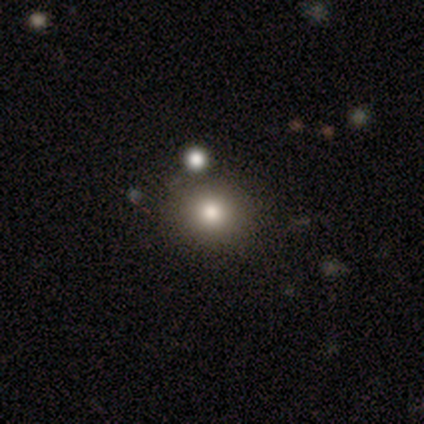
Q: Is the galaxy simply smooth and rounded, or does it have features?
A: smooth — 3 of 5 (60%).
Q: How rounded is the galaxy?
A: in between — 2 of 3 (67%).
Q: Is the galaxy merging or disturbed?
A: none — 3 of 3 (100%).